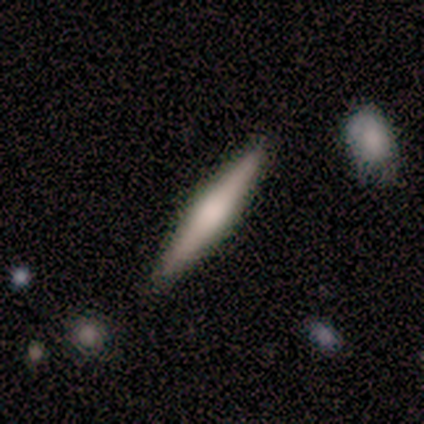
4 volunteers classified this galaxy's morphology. Volunteers were most divided on "edge-on bulge": rounded: 50%, boxy: 25%, none: 25%. More confident: smooth or featured — featured or disk (100%); edge-on disk — yes (100%); merging — none (75%).